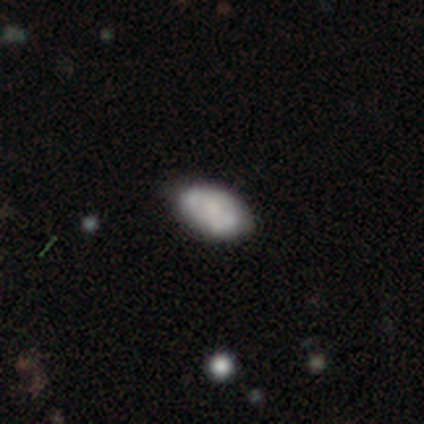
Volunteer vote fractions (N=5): Q: Smooth or featured?
A: smooth (40%); tied with: featured or disk (40%)
Q: How rounded?
A: in between (100%)
Q: Merging?
A: none (50%); tied with: minor disturbance (50%)